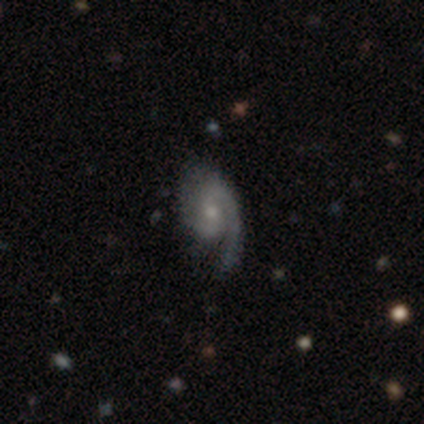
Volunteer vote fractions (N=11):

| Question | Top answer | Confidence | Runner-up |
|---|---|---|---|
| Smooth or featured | featured or disk | 91% | smooth (9%) |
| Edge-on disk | no | 100% | — |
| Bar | no | 70% | weak (30%) |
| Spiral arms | yes | 100% | — |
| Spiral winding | loose | 40% | tight (30%) |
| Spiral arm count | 1 | 50% | tied: 2 (50%) |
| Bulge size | moderate | 50% | small (30%) |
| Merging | none | 55% | minor disturbance (27%) |